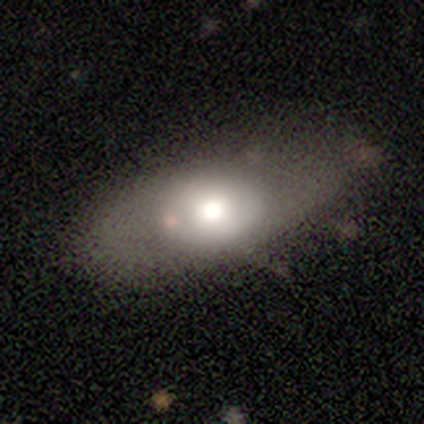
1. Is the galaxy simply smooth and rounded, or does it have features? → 60% smooth, 40% featured or disk, 0% star or artifact.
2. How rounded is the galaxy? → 83% in between, 17% round, 0% cigar-shaped.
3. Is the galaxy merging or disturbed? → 40% none, 30% minor disturbance, 20% major disturbance, 10% merger.